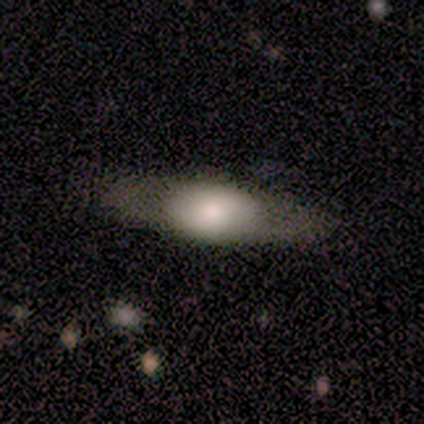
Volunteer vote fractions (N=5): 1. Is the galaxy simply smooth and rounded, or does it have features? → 80% featured or disk, 20% smooth, 0% star or artifact.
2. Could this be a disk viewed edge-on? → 75% yes, 25% no.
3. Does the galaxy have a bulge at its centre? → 100% rounded, 0% boxy, 0% none.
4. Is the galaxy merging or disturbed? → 60% none, 40% minor disturbance, 0% major disturbance, 0% merger.